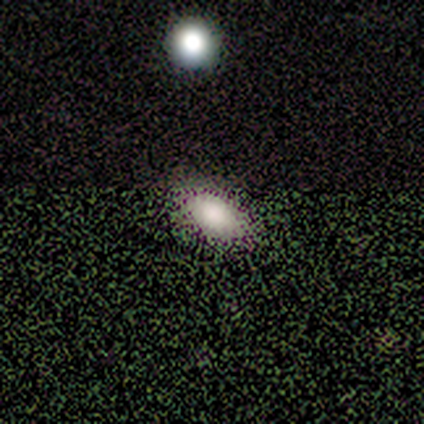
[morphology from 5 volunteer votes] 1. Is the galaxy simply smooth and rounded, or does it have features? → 80% smooth, 20% star or artifact, 0% featured or disk.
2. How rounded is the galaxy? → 100% in between, 0% round, 0% cigar-shaped.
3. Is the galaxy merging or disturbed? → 75% none, 25% major disturbance, 0% minor disturbance, 0% merger.